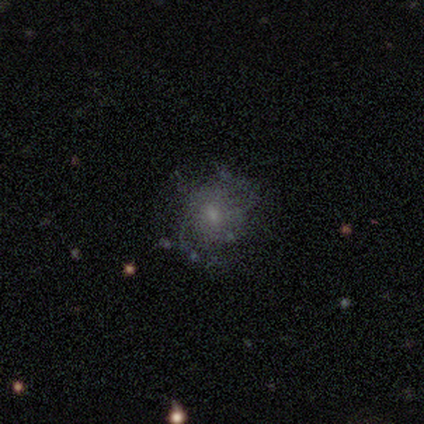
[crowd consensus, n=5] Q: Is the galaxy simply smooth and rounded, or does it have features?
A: featured or disk — 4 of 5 (80%).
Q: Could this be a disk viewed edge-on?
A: no — 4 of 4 (100%).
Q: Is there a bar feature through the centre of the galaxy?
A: no — 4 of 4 (100%).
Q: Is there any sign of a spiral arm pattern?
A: yes — 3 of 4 (75%).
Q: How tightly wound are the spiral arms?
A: medium — 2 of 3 (67%).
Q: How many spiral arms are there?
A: can't tell — 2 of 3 (67%).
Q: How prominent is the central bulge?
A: small — 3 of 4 (75%).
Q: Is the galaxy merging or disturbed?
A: none — 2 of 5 (40%, tied with minor disturbance).